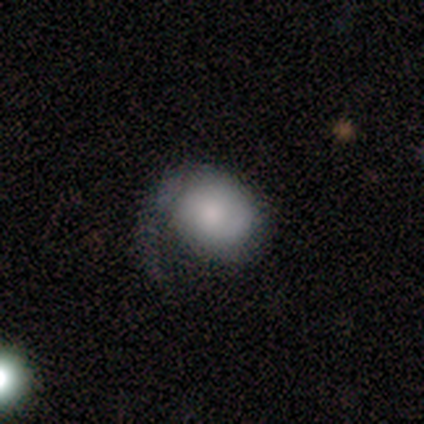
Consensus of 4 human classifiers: Q: Smooth or featured?
A: featured or disk (50%); runner-up: smooth (25%)
Q: Edge-on disk?
A: no (100%)
Q: Bar?
A: weak (50%); tied with: no (50%)
Q: Spiral arms?
A: yes (50%); tied with: no (50%)
Q: Spiral winding?
A: medium (100%)
Q: Spiral arm count?
A: 1 (100%)
Q: Bulge size?
A: large (50%); tied with: none (50%)
Q: Merging?
A: major disturbance (67%); runner-up: none (33%)